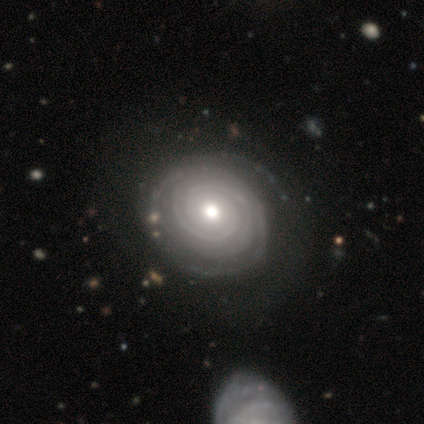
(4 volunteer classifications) Smooth or featured?
  - featured or disk: 75% *
  - smooth: 25%
  - star or artifact: 0%
Edge-on disk?
  - no: 100% *
  - yes: 0%
Bar?
  - no: 100% *
  - strong: 0%
  - weak: 0%
Spiral arms?
  - yes: 100% *
  - no: 0%
Spiral winding?
  - tight: 100% *
  - medium: 0%
  - loose: 0%
Spiral arm count?
  - 2: 67% *
  - 4: 33%
  - 1: 0%
  - 3: 0%
  - more than 4: 0%
  - can't tell: 0%
Bulge size?
  - moderate: 100% *
  - dominant: 0%
  - large: 0%
  - small: 0%
  - none: 0%
Merging?
  - none: 100% *
  - minor disturbance: 0%
  - major disturbance: 0%
  - merger: 0%